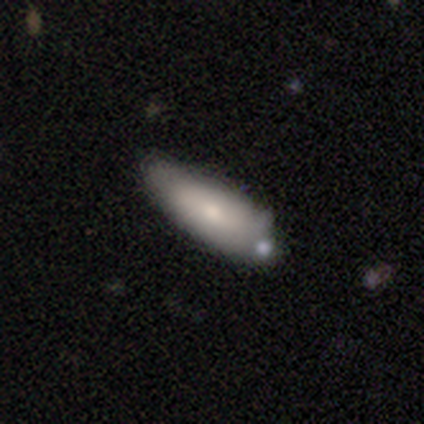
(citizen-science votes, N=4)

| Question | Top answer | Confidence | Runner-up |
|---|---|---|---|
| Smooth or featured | smooth | 100% | — |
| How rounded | in between | 50% | tied: cigar-shaped (50%) |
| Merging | none | 100% | — |